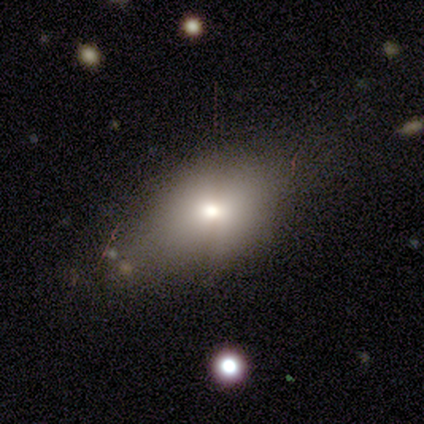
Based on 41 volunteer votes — Q: Smooth or featured?
A: smooth (88%); runner-up: featured or disk (7%)
Q: How rounded?
A: in between (83%); runner-up: round (11%)
Q: Merging?
A: none (67%); runner-up: minor disturbance (23%)